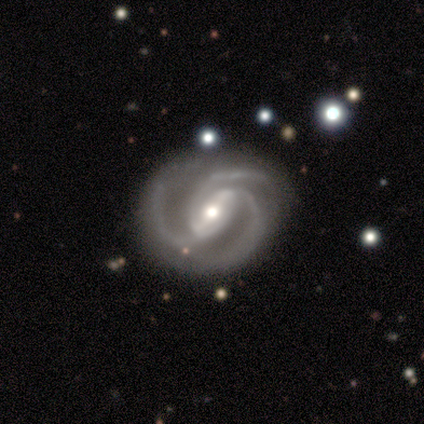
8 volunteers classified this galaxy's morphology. Smooth or featured?
  - featured or disk: 100% *
  - smooth: 0%
  - star or artifact: 0%
Edge-on disk?
  - no: 100% *
  - yes: 0%
Bar?
  - weak: 62% *
  - strong: 25%
  - no: 12%
Spiral arms?
  - yes: 100% *
  - no: 0%
Spiral winding?
  - medium: 62% *
  - tight: 38%
  - loose: 0%
Spiral arm count?
  - 3: 88% *
  - can't tell: 12%
  - 1: 0%
  - 2: 0%
  - 4: 0%
  - more than 4: 0%
Bulge size?
  - moderate: 75% *
  - small: 25%
  - dominant: 0%
  - large: 0%
  - none: 0%
Merging?
  - none: 75% *
  - minor disturbance: 12%
  - major disturbance: 12%
  - merger: 0%